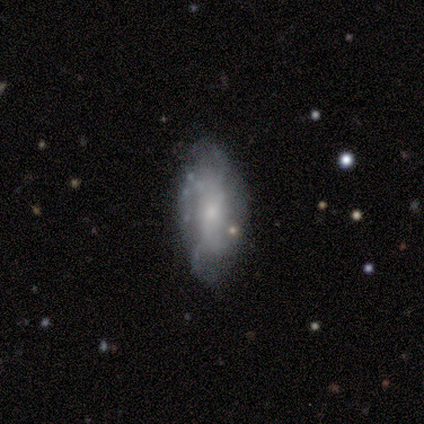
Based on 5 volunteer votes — Smooth or featured? 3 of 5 (60%) said smooth. How rounded? 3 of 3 (100%) said in between. Merging? 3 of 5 (60%) said none.